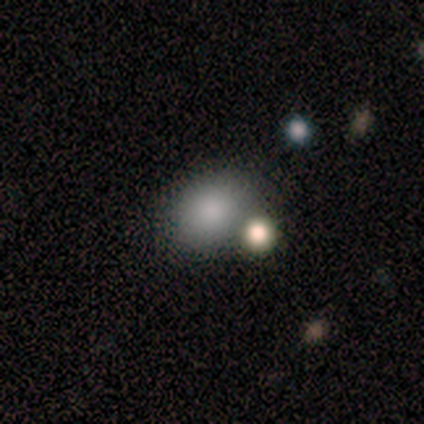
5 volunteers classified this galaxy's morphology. Overall: smooth (40%, tied with featured or disk). How rounded: round (50%, tied with in between). Merging: none (50%, tied with merger).